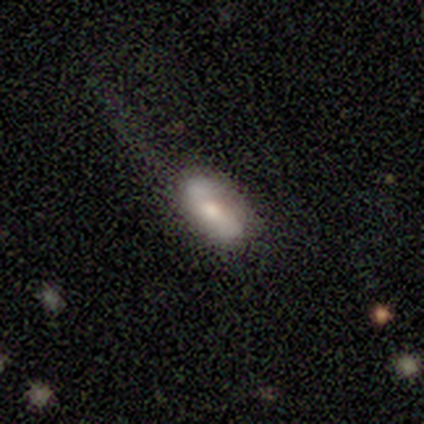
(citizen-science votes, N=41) Q: Smooth or featured?
A: smooth (61%); runner-up: featured or disk (29%)
Q: How rounded?
A: in between (96%); runner-up: cigar-shaped (4%)
Q: Merging?
A: none (57%); runner-up: minor disturbance (27%)